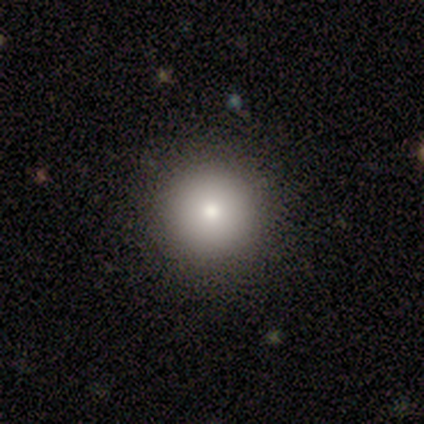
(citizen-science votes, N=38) This appears to be a smooth galaxy with no disk features (79%) that is round (97%). Merging: none (88%).